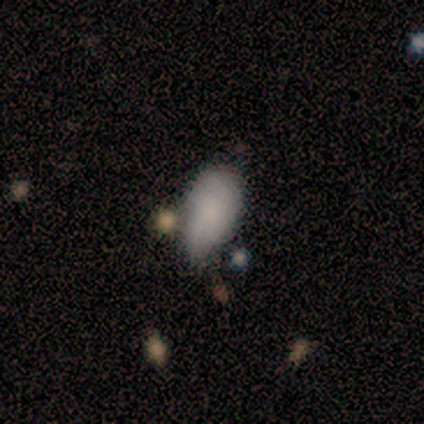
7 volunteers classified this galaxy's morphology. Smooth or featured? 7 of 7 (100%) said smooth. How rounded? 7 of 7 (100%) said in between. Merging? 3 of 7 (43%) said minor disturbance.